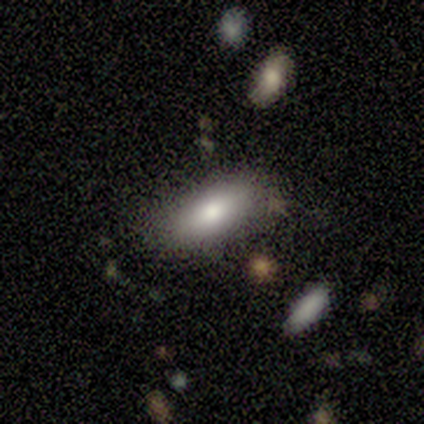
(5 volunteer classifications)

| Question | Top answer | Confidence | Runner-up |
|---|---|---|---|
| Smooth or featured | smooth | 60% | featured or disk (40%) |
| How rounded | cigar-shaped | 67% | in between (33%) |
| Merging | none | 80% | merger (20%) |